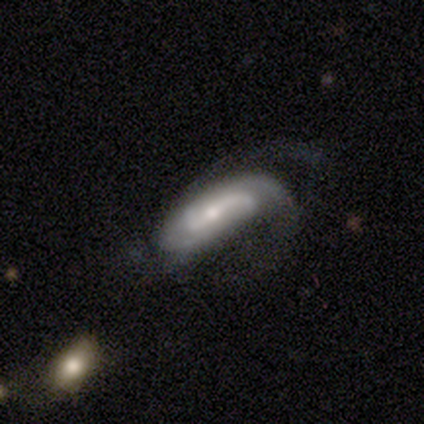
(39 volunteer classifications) Morphology: type=featured or disk (77%); edge-on=no (93%); bar=weak (43%); spiral arms=yes (96%); winding=medium (44%); arm count=2 (52%); bulge=small (57%); merging=major disturbance (38%).